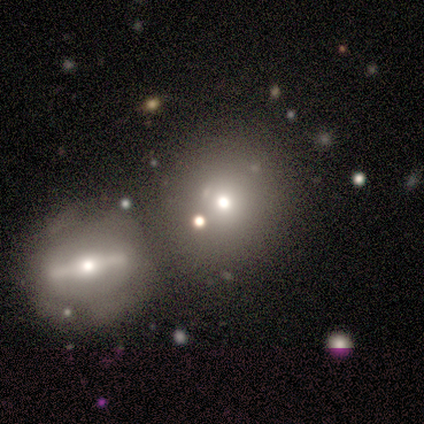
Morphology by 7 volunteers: A smooth galaxy with no disk features (57%) that is round (100%).

Vote fractions:
- Smooth or featured? smooth: 57% / star or artifact: 29% / featured or disk: 14%
- How rounded? round: 100% / in between: 0% / cigar-shaped: 0%
- Merging? merger: 60% / none: 20% / minor disturbance: 20% / major disturbance: 0%